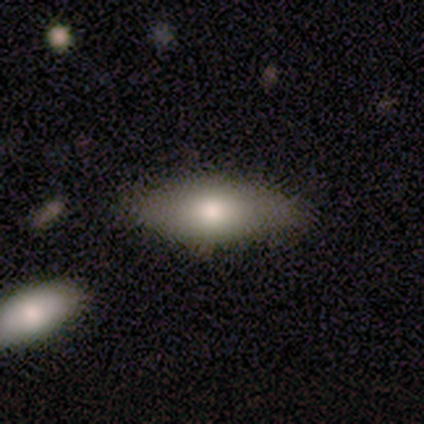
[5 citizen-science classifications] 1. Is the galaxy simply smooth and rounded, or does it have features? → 80% smooth, 20% featured or disk, 0% star or artifact.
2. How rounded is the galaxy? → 100% in between, 0% round, 0% cigar-shaped.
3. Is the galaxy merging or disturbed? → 60% minor disturbance, 40% none, 0% major disturbance, 0% merger.